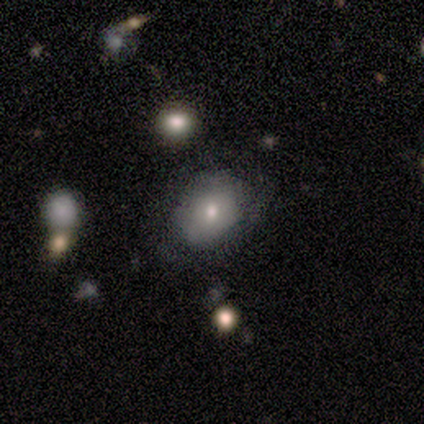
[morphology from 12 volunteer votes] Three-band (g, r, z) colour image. It shows a smooth galaxy with no disk features (67%) that is in between round and cigar-shaped (62%). Merging: none (80%).